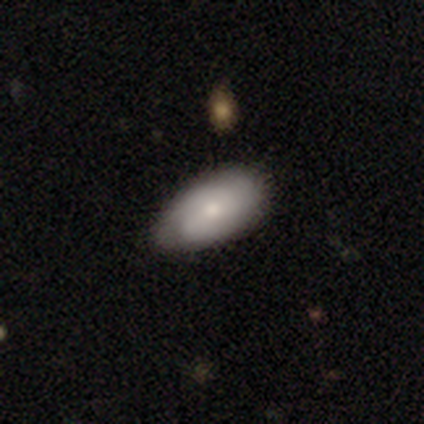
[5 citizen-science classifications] smooth-or-featured: smooth: 60% | featured or disk: 40% | star or artifact: 0%
  how-rounded: in between: 100% | round: 0% | cigar-shaped: 0%
  merging: none: 60% | minor disturbance: 40% | major disturbance: 0% | merger: 0%